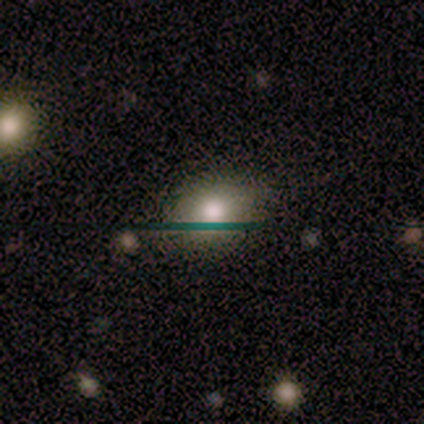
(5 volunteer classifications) Smooth or featured?
  - smooth: 80% *
  - featured or disk: 20%
  - star or artifact: 0%
How rounded?
  - in between: 75% *
  - round: 25%
  - cigar-shaped: 0%
Merging?
  - none: 80% *
  - minor disturbance: 20%
  - major disturbance: 0%
  - merger: 0%